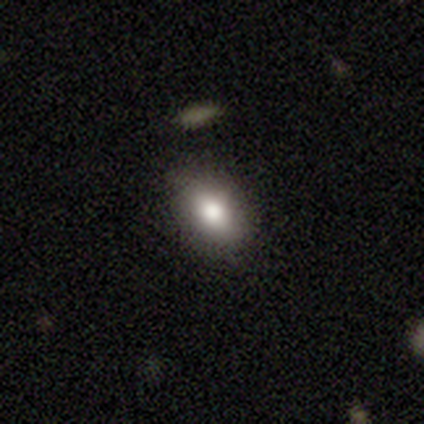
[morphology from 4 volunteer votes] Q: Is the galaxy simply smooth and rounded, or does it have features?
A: smooth — 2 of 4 (50%, tied with featured or disk).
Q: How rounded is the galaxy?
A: in between — 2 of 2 (100%).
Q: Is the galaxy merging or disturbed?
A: none — 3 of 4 (75%).